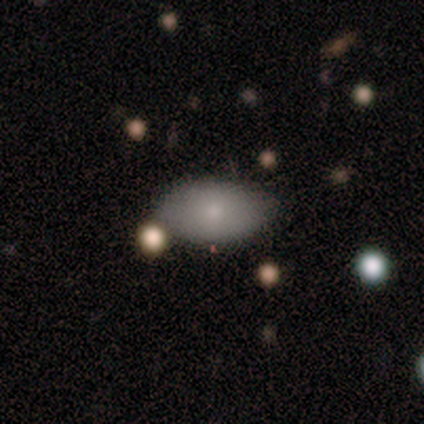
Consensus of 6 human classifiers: This is likely a smooth galaxy (67%). How rounded: clearly in between (100%). Merging: clearly none (83%).